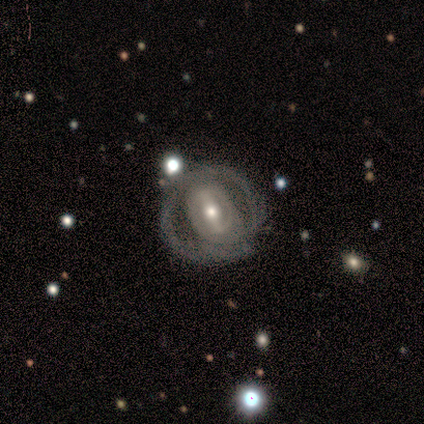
A featured or disk galaxy (100%) with a strong bar (50%), 1 (25%, tied with 2, 3 and can't tell) medium (50%) spiral arms (67%) and a moderate central bulge (50%).

Vote fractions:
- Smooth or featured? featured or disk: 100% / smooth: 0% / star or artifact: 0%
- Edge-on disk? no: 100% / yes: 0%
- Bar? strong: 50% / no: 33% / weak: 17%
- Spiral arms? yes: 67% / no: 33%
- Spiral winding? medium: 50% / tight: 25% / loose: 25%
- Spiral arm count? 1: 25% (tied) / 2: 25% (tied) / 3: 25% (tied) / can't tell: 25% (tied) / 4: 0% / more than 4: 0%
- Bulge size? moderate: 50% / small: 33% / large: 17% / dominant: 0% / none: 0%
- Merging? none: 67% / minor disturbance: 33% / major disturbance: 0% / merger: 0%